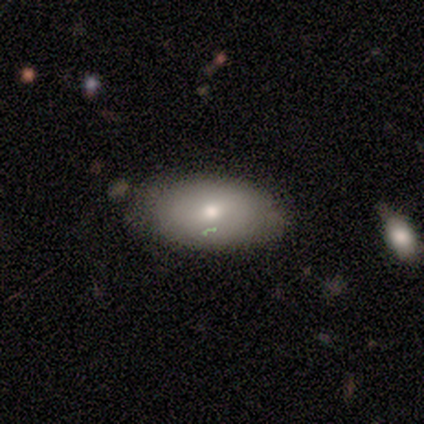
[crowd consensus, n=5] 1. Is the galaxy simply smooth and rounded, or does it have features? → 100% smooth, 0% featured or disk, 0% star or artifact.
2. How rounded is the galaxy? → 80% in between, 20% round, 0% cigar-shaped.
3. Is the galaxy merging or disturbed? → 60% none, 20% minor disturbance, 20% major disturbance, 0% merger.